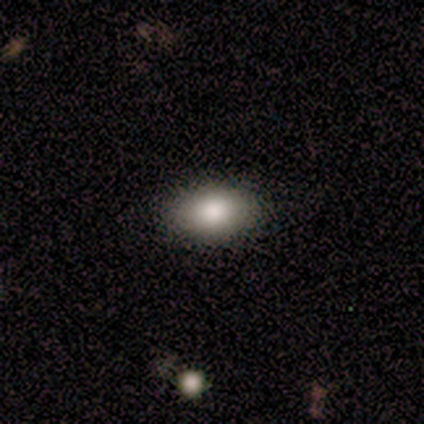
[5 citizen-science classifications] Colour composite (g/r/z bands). It shows a smooth galaxy with no disk features (100%) that is in between round and cigar-shaped (80%). Merging: none (80%).